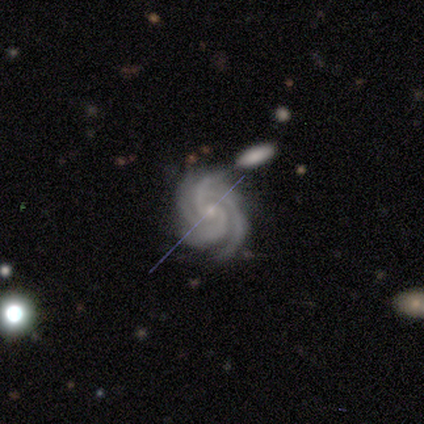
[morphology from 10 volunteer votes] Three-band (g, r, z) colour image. It shows a featured or disk galaxy (100%) with no bar (80%), 4 (60%) tight (90%) spiral arms (100%) and a small central bulge (100%). Merging: none (80%).